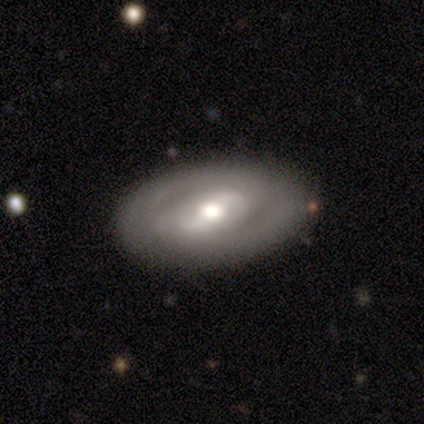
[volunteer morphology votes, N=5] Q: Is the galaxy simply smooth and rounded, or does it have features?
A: featured or disk — 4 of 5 (80%).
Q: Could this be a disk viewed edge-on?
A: no — 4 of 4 (100%).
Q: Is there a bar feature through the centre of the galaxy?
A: strong — 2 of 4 (50%, tied with weak).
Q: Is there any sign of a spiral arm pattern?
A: yes — 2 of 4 (50%, tied with no).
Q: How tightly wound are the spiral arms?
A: tight — 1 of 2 (50%, tied with medium).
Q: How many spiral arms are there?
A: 2 — 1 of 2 (50%, tied with can't tell).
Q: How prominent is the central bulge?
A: moderate — 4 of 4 (100%).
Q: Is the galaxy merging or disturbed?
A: none — 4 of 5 (80%).